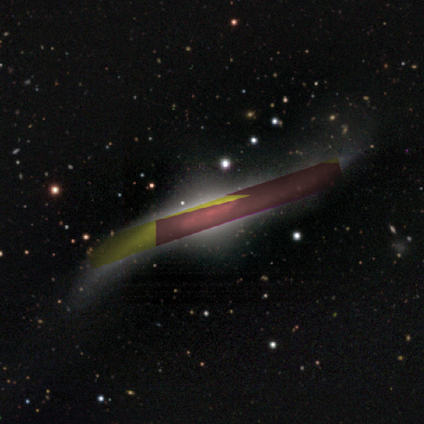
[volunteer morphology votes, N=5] smooth_or_featured: star or artifact (p=0.80) [alt: featured or disk p=0.20]